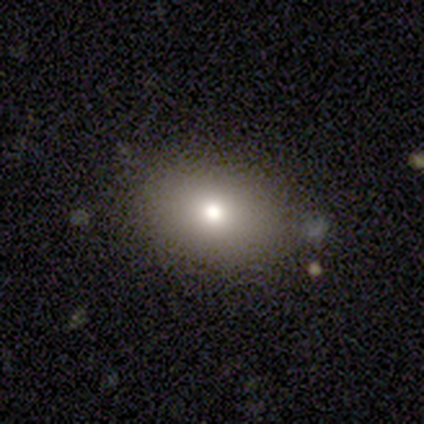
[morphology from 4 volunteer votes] smooth 50% (tied), star or artifact 50% (tied), featured or disk 0%. Down the decision tree: how rounded — in between (100%); merging — none (50%, tied with minor disturbance).